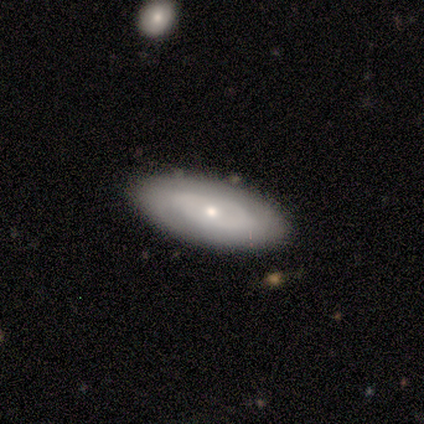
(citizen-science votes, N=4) This is possibly a smooth galaxy (50%, tied with featured or disk). How rounded: clearly in between (100%). Merging: likely none (75%).